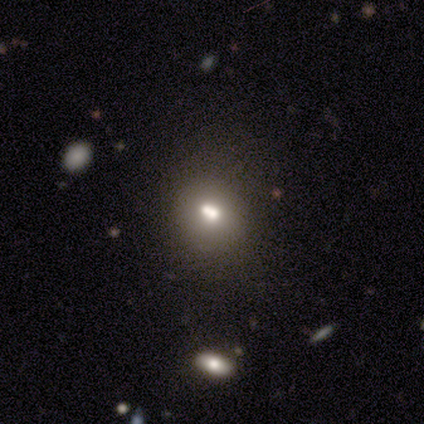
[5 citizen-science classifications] This appears to be a smooth galaxy with no disk features (100%) that is round (80%). Merging: none (60%).